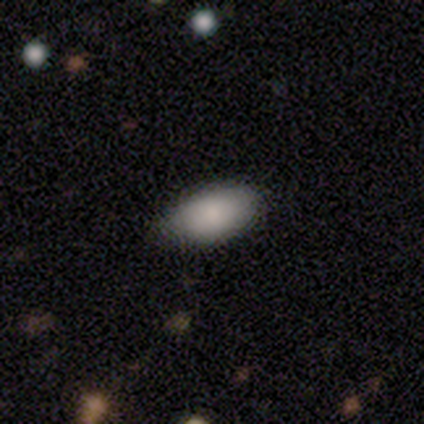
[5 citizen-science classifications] This is clearly a smooth galaxy (100%). How rounded: clearly in between (100%). Merging: clearly none (80%).